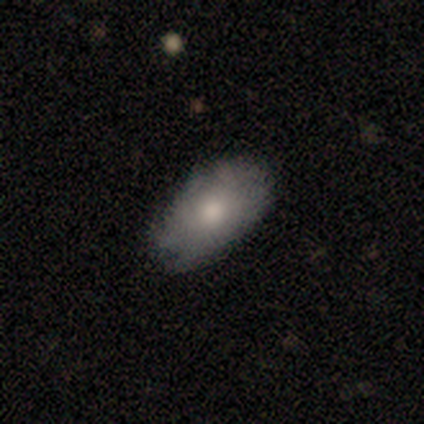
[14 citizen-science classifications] smooth 64%, featured or disk 36%, star or artifact 0%. Down the decision tree: how rounded — in between (100%); merging — none (57%).